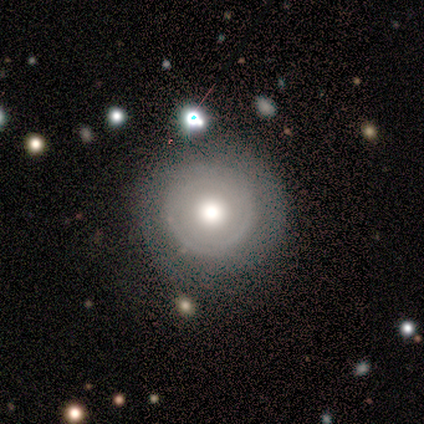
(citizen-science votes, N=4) A featured or disk galaxy (50%) viewed edge-on (50%, tied with no) with a rounded central bulge (100%). Merging: none (67%).